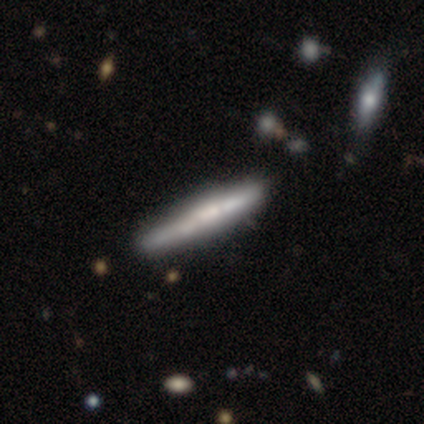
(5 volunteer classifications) featured or disk 60%, smooth 40%, star or artifact 0%. Down the decision tree: edge-on disk — yes (100%); edge-on bulge — boxy (67%); merging — none (60%).